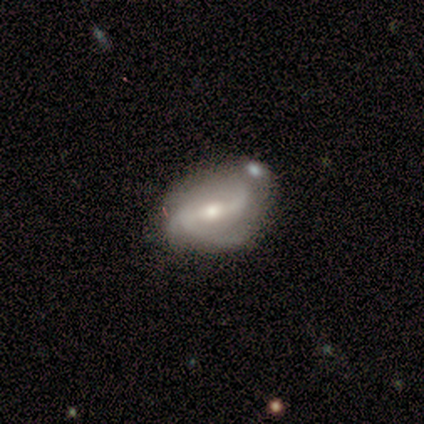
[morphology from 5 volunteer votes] type=featured or disk (80%); edge-on=no (100%); bar=strong (75%); spiral arms=yes (75%); winding=tight (33%, tied with medium and loose); arm count=2 (67%); bulge=moderate (100%); merging=minor disturbance (40%, tied with major disturbance).